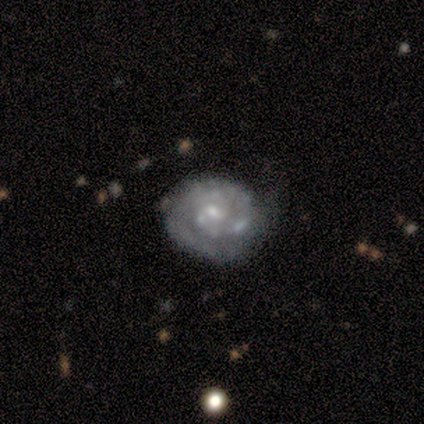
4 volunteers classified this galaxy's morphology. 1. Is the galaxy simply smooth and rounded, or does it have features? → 75% featured or disk, 25% star or artifact, 0% smooth.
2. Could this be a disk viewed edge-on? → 100% no, 0% yes.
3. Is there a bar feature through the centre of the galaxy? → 67% no, 33% weak, 0% strong.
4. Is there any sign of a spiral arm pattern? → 67% yes, 33% no.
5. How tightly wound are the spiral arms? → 100% tight, 0% medium, 0% loose.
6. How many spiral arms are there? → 50% 2 (tied), 50% can't tell (tied), 0% 1, 0% 3, 0% 4, 0% more than 4.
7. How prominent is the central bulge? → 67% small, 33% moderate, 0% dominant, 0% large, 0% none.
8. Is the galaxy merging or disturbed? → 67% none, 33% minor disturbance, 0% major disturbance, 0% merger.